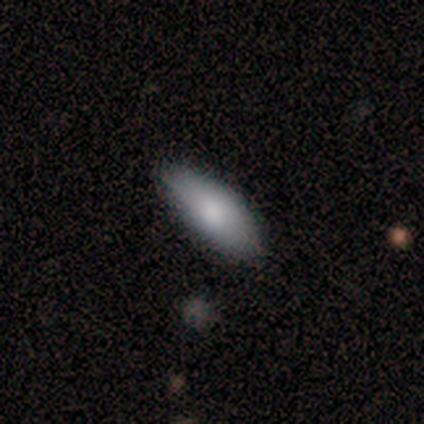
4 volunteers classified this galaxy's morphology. smooth-or-featured: smooth: 75% | featured or disk: 25% | star or artifact: 0%
  how-rounded: in between: 67% | cigar-shaped: 33% | round: 0%
  merging: none: 50% (tied) | minor disturbance: 50% (tied) | major disturbance: 0% | merger: 0%